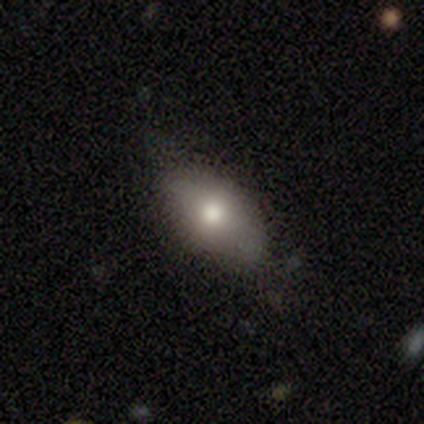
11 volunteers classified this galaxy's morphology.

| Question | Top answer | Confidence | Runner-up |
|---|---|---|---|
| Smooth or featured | smooth | 91% | star or artifact (9%) |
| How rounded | in between | 90% | cigar-shaped (10%) |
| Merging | none | 60% | minor disturbance (40%) |